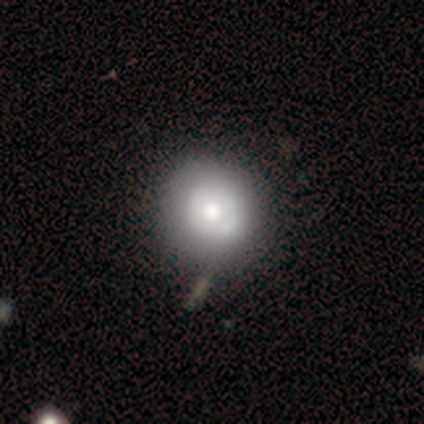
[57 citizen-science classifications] Q: Smooth or featured?
A: smooth (53%); runner-up: featured or disk (44%)
Q: How rounded?
A: round (97%); runner-up: in between (3%)
Q: Merging?
A: none (71%); runner-up: minor disturbance (22%)